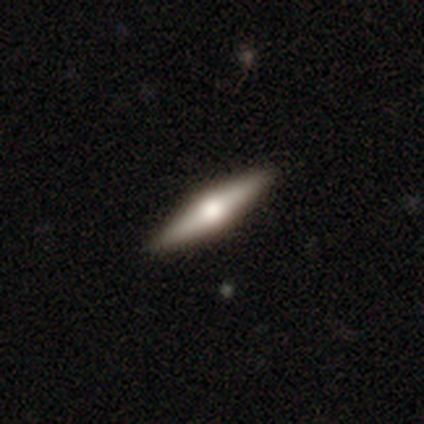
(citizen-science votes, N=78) smooth-or-featured: featured or disk: 49% | smooth: 45% | star or artifact: 6%
  disk-edge-on: yes: 100% | no: 0%
    edge-on-bulge: rounded: 97% | boxy: 3% | none: 0%
  merging: none: 49% | minor disturbance: 1% | major disturbance: 0% | merger: 0%